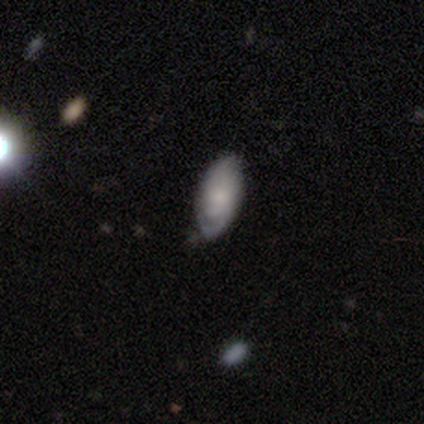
smooth_or_featured: smooth (p=0.75) [alt: featured or disk p=0.25]
how_rounded: in between (p=1.00)
merging: none (p=0.50) [tied with: minor disturbance p=0.50]